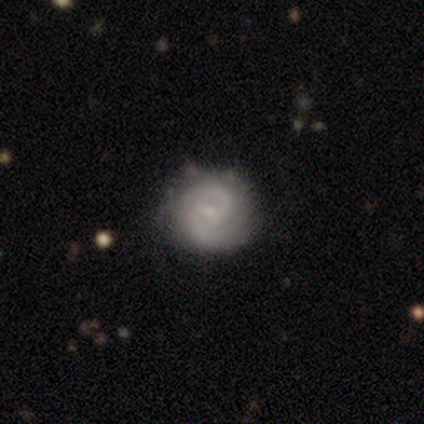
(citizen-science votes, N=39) A featured or disk galaxy (72%) with no bar (52%), 2 (72%) tight (56%) spiral arms (93%) and a small central bulge (78%).

Vote fractions:
- Smooth or featured? featured or disk: 72% / smooth: 26% / star or artifact: 3%
- Edge-on disk? no: 96% / yes: 4%
- Bar? no: 52% / weak: 44% / strong: 4%
- Spiral arms? yes: 93% / no: 7%
- Spiral winding? tight: 56% / medium: 36% / loose: 8%
- Spiral arm count? 2: 72% / can't tell: 24% / 1: 4% / 3: 0% / 4: 0% / more than 4: 0%
- Bulge size? small: 78% / none: 11% / moderate: 7% / large: 4% / dominant: 0%
- Merging? none: 66% / minor disturbance: 32% / merger: 3% / major disturbance: 0%